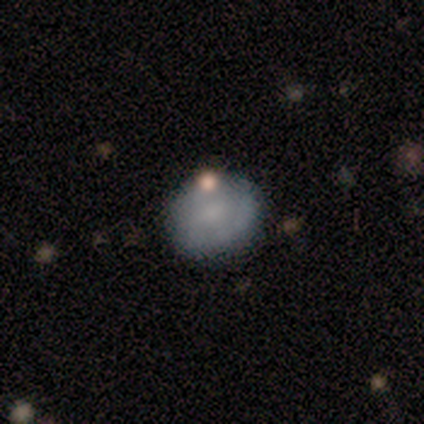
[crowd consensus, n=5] Overall: smooth (80%). How rounded: round (50%, tied with in between). Merging: none (100%).